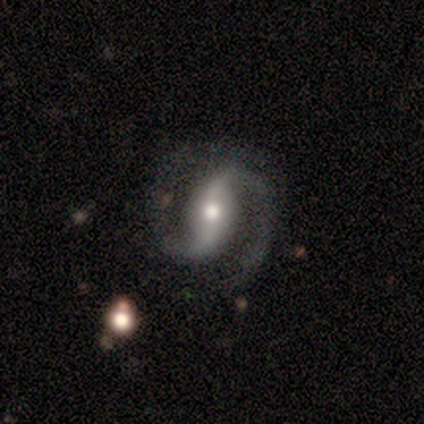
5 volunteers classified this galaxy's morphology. This appears to be a featured or disk galaxy (100%) with a strong bar (60%), 2 (80%) medium (60%) spiral arms (100%) and a small central bulge (60%). Merging: none (80%).